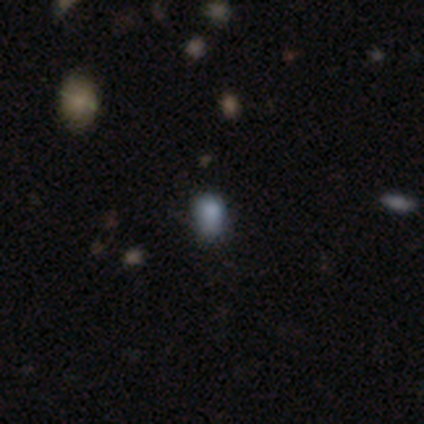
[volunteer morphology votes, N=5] This appears to be a smooth galaxy with no disk features (60%) that is round (100%). Merging: none (75%).